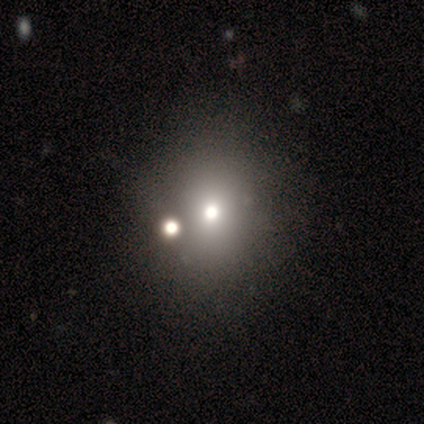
This is clearly a smooth galaxy (100%). How rounded: clearly round (80%). Merging: likely none (60%).